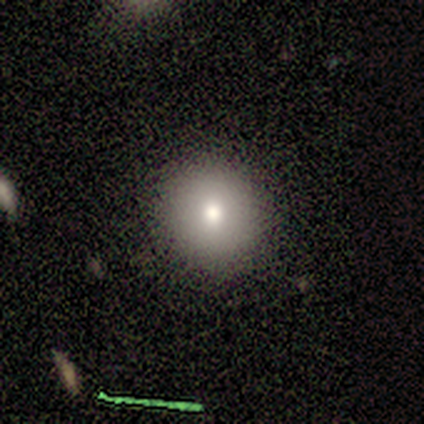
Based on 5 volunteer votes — Morphology: type=smooth (40%, tied with star or artifact); roundness=round (100%); merging=none (100%).